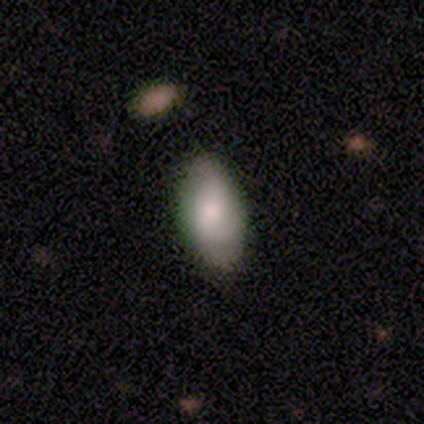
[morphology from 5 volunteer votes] This is likely a smooth galaxy (60%). How rounded: clearly in between (100%). Merging: clearly none (100%).